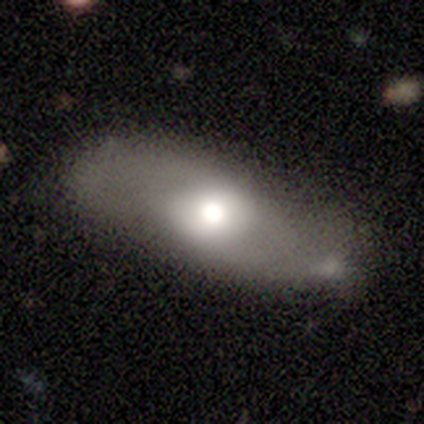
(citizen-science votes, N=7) Q: Smooth or featured?
A: smooth (57%); runner-up: featured or disk (29%)
Q: How rounded?
A: in between (100%)
Q: Merging?
A: none (50%); tied with: minor disturbance (50%)